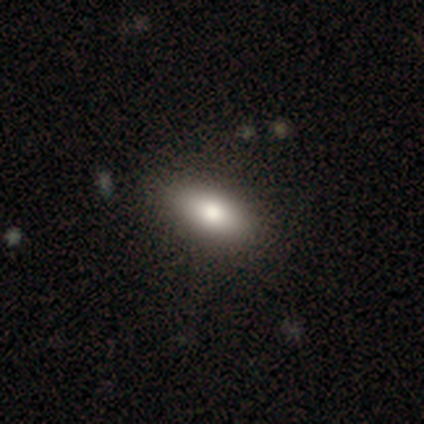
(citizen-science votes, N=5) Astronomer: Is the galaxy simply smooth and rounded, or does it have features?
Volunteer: smooth — 80%.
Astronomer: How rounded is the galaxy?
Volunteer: in between — 100%.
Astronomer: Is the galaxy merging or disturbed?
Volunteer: none — 60%.